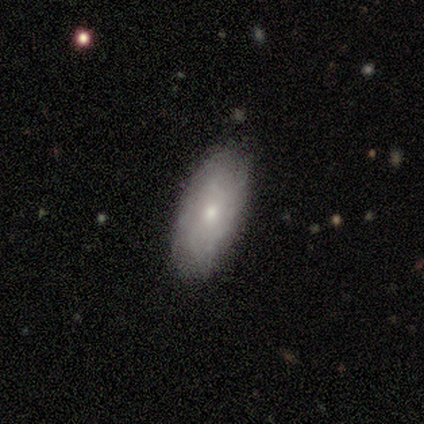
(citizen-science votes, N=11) A smooth galaxy with no disk features (45%) that is in between round and cigar-shaped (100%). Merging: none (89%).